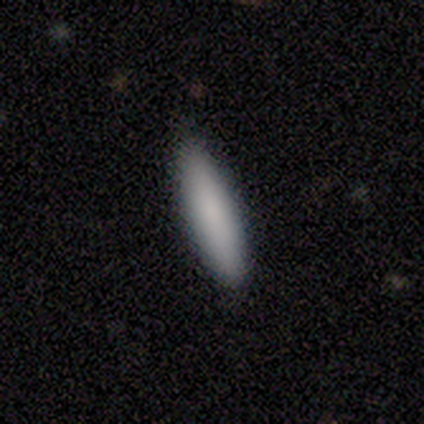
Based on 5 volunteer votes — Overall: smooth (100%). How rounded: cigar-shaped (80%). Merging: none (100%).